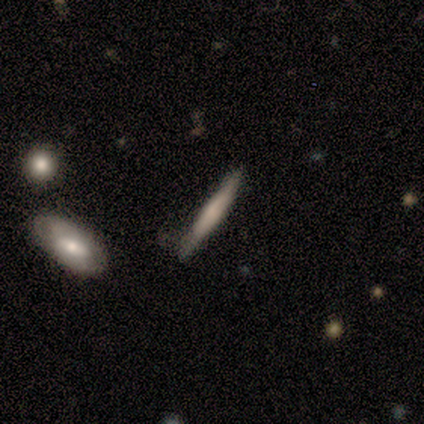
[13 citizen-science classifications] smooth-or-featured: smooth: 77% | featured or disk: 23% | star or artifact: 0%
  how-rounded: cigar-shaped: 100% | round: 0% | in between: 0%
  merging: none: 46% (tied) | minor disturbance: 46% (tied) | merger: 8% | major disturbance: 0%